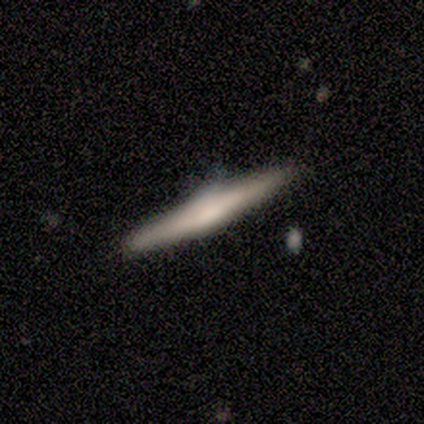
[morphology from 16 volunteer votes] type=featured or disk (56%); edge-on=yes (100%); edge-on bulge=rounded (78%); merging=none (80%).